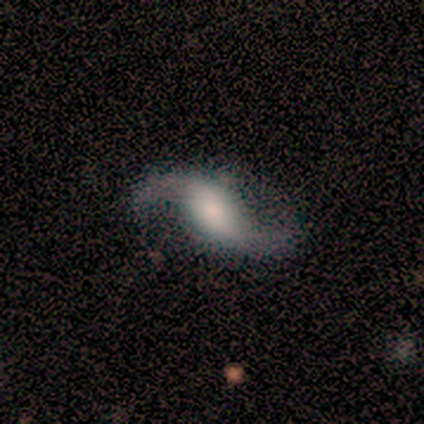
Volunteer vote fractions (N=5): Overall: featured or disk (100%). Edge-on disk: no (100%). Bar: strong (40%, tied with no). Spiral arms: yes (100%). Spiral arm count: 2 (100%). Spiral winding: loose (100%). Bulge size: large (40%; dominant 20%). Merging: none (100%).